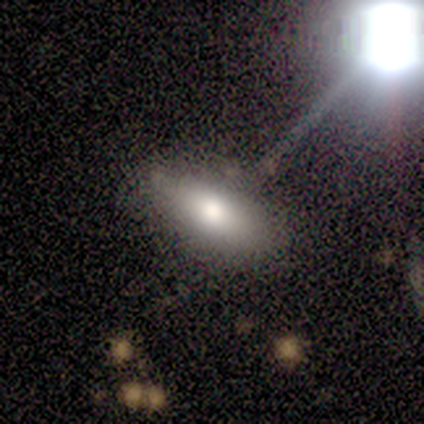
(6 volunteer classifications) Morphology: type=smooth (100%); roundness=in between (83%); merging=none (83%).